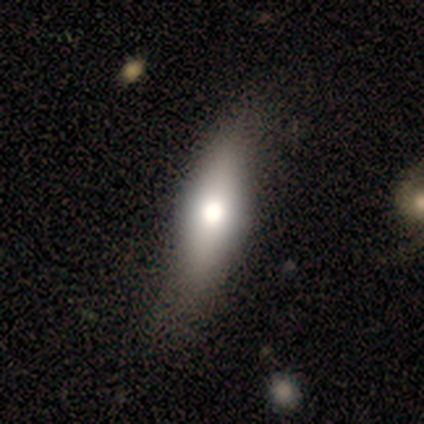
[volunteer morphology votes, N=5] A smooth galaxy with no disk features (60%) that is in between round and cigar-shaped (67%).

Vote fractions:
- Smooth or featured? smooth: 60% / featured or disk: 40% / star or artifact: 0%
- How rounded? in between: 67% / cigar-shaped: 33% / round: 0%
- Merging? none: 40% (tied) / minor disturbance: 40% (tied) / major disturbance: 20% / merger: 0%